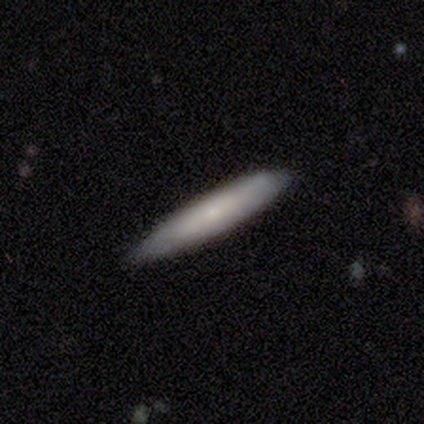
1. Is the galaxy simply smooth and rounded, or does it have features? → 60% smooth, 20% featured or disk, 20% star or artifact.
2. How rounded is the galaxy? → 100% cigar-shaped, 0% round, 0% in between.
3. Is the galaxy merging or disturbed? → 75% none, 25% minor disturbance, 0% major disturbance, 0% merger.